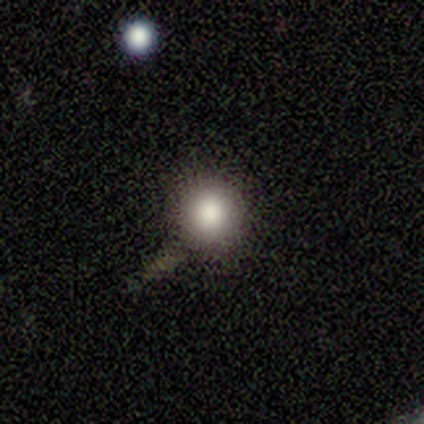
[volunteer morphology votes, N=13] smooth_or_featured: smooth (p=0.69) [alt: featured or disk p=0.15]
how_rounded: round (p=0.89) [alt: in between p=0.11]
merging: none (p=0.82) [alt: minor disturbance p=0.18]